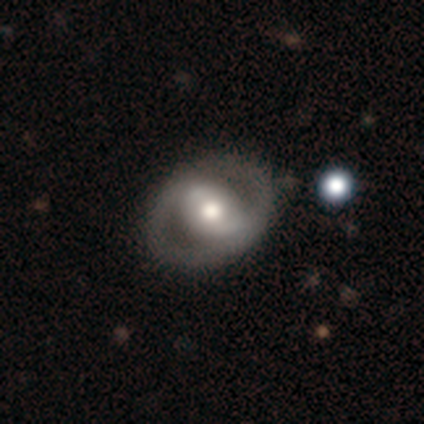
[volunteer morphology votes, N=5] Volunteers were most divided on "bar": strong: 67%, no: 33%, weak: 0%. More confident: edge-on disk — no (100%); spiral arms — no (100%); merging — none (100%); bulge size — moderate (67%); smooth or featured — featured or disk (60%).